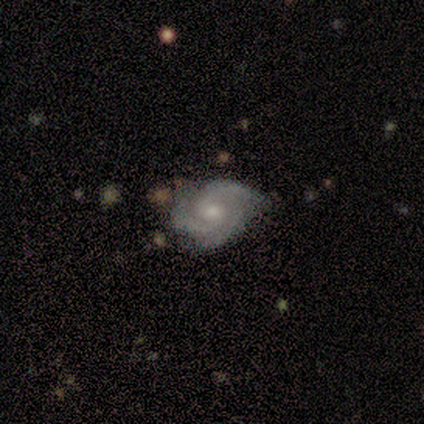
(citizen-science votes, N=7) Volunteers were most divided on "spiral winding" (2-way tie): tight: 43%, medium: 43%, loose: 14%. More confident: smooth or featured — featured or disk (100%); edge-on disk — no (100%); bar — no (100%); spiral arms — yes (100%); merging — none (86%); spiral arm count — 3 (71%); bulge size — moderate (57%).